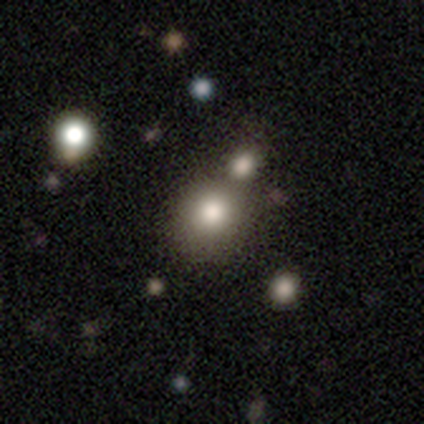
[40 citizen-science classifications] smooth 60%, star or artifact 28%, featured or disk 12%. Down the decision tree: how rounded — round (83%); merging — none (59%).